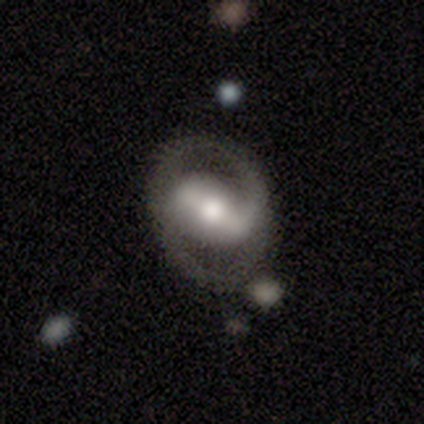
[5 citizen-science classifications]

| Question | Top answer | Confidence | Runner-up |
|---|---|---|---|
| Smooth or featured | featured or disk | 100% | — |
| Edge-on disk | no | 100% | — |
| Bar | strong | 80% | weak (20%) |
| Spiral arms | yes | 100% | — |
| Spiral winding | medium | 40% | tied: loose (40%) |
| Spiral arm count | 2 | 100% | — |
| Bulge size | moderate | 80% | large (20%) |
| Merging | none | 100% | — |